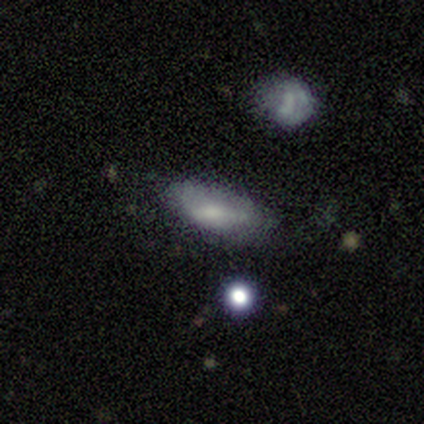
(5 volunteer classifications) Smooth or featured? 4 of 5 (80%) said smooth. How rounded? 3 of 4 (75%) said in between. Merging? 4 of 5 (80%) said none.